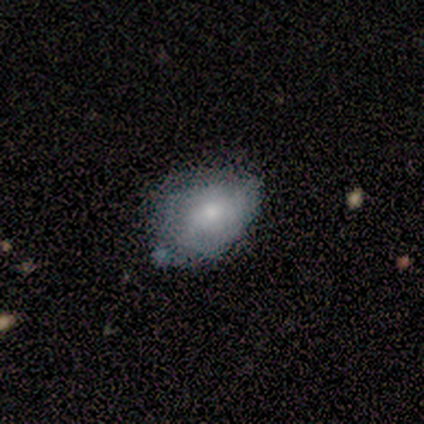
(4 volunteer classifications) Overall: smooth (50%, tied with featured or disk). How rounded: in between (100%). Merging: none (100%).